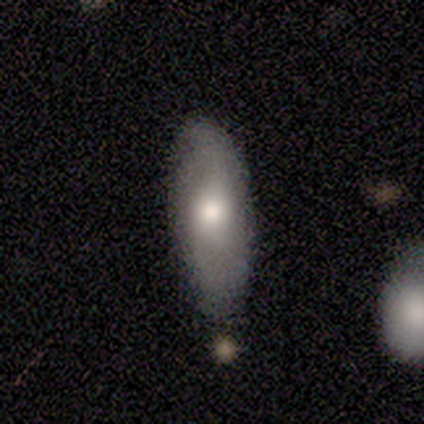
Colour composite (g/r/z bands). It shows a smooth galaxy with no disk features (40%, tied with featured or disk) that is in between round and cigar-shaped (50%, tied with cigar-shaped). Merging: none (100%).